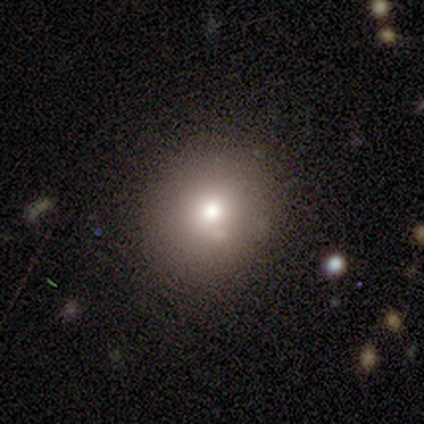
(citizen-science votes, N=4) This appears to be a smooth galaxy with no disk features (100%) that is round (75%). Merging: none (75%).